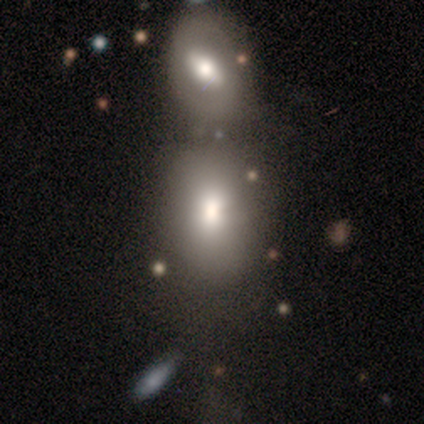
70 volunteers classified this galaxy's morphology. A smooth galaxy with no disk features (79%) that is in between round and cigar-shaped (80%).

Vote fractions:
- Smooth or featured? smooth: 79% / featured or disk: 17% / star or artifact: 4%
- How rounded? in between: 80% / round: 20% / cigar-shaped: 0%
- Merging? merger: 58% / none: 18% / minor disturbance: 7% / major disturbance: 7%